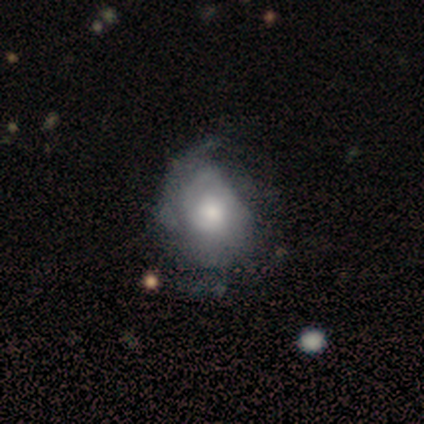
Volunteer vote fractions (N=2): Smooth or featured? smooth (50%, tied with featured or disk)
How rounded? in between (100%)
Merging? none (50%, tied with minor disturbance)